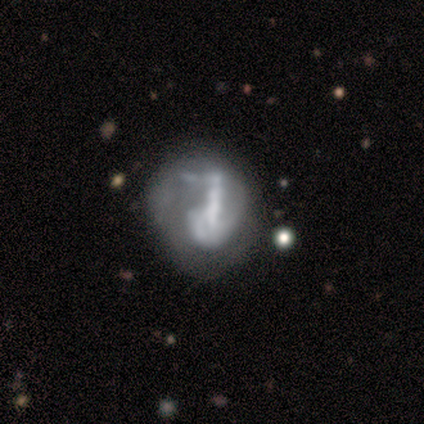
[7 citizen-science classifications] Morphology: type=featured or disk (57%); edge-on=no (100%); bar=strong (50%); spiral arms=no (75%); bulge=none (50%); merging=major disturbance (43%).